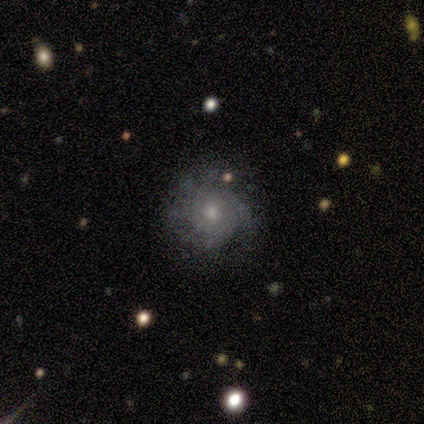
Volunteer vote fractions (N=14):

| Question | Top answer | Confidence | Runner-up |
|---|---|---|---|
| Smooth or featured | featured or disk | 64% | smooth (29%) |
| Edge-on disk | no | 100% | — |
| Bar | no | 89% | weak (11%) |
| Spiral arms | yes | 67% | no (33%) |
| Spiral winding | loose | 50% | tight (33%) |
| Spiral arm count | can't tell | 50% | 3 (33%) |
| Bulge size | small | 67% | moderate (33%) |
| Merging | none | 92% | minor disturbance (8%) |